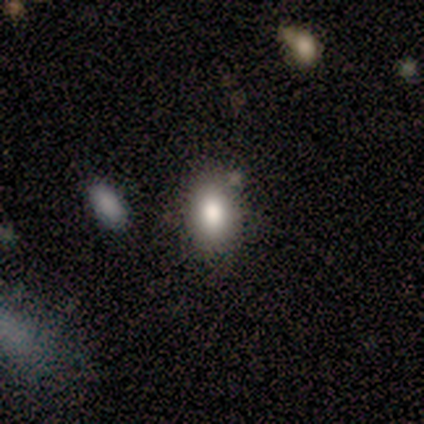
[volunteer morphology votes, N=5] Smooth or featured? smooth (80%)
How rounded? in between (100%)
Merging? none (80%)